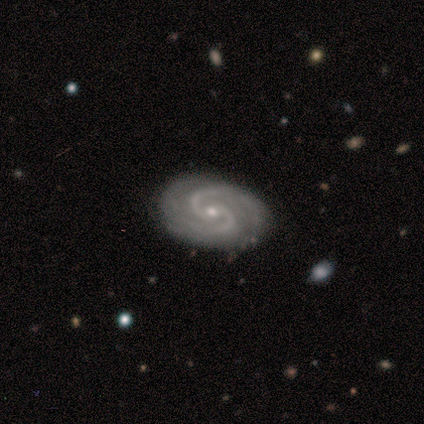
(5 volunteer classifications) Smooth or featured?
  - featured or disk: 100% *
  - smooth: 0%
  - star or artifact: 0%
Edge-on disk?
  - no: 100% *
  - yes: 0%
Bar?
  - no: 80% *
  - weak: 20%
  - strong: 0%
Spiral arms?
  - yes: 100% *
  - no: 0%
Spiral winding?
  - tight: 60% *
  - medium: 40%
  - loose: 0%
Spiral arm count?
  - 2: 100% *
  - 1: 0%
  - 3: 0%
  - 4: 0%
  - more than 4: 0%
  - can't tell: 0%
Bulge size?
  - moderate: 60% *
  - small: 40%
  - dominant: 0%
  - large: 0%
  - none: 0%
Merging?
  - none: 100% *
  - minor disturbance: 0%
  - major disturbance: 0%
  - merger: 0%